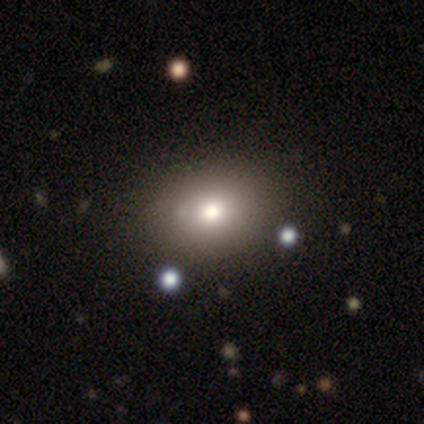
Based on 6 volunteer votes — Smooth or featured: smooth — 100%
How rounded: in between — 67% (round — 33%)
Merging: none — 67% (minor disturbance — 33%)